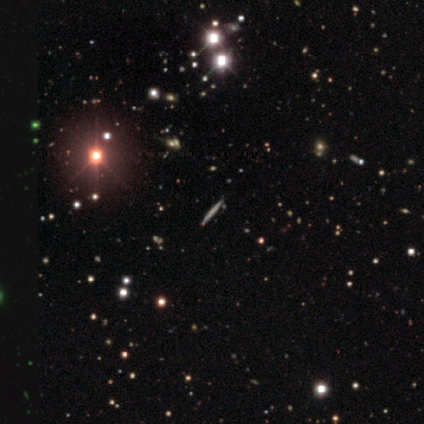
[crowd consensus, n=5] featured or disk 60%, star or artifact 40%, smooth 0%. Down the decision tree: edge-on disk — yes (100%); edge-on bulge — none (67%); merging — none (100%).